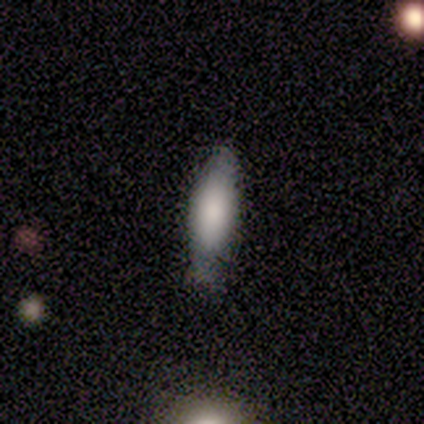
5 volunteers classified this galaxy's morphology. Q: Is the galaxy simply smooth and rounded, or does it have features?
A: smooth — 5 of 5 (100%).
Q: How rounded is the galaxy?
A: in between — 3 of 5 (60%).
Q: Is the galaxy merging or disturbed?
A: none — 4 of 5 (80%).